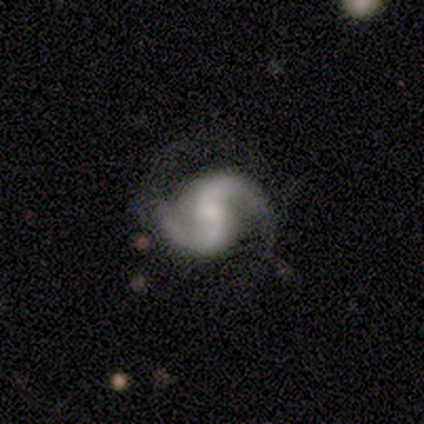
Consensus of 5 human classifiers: smooth_or_featured: featured or disk (p=1.00)
disk_edge_on: no (p=1.00)
bar: weak (p=0.60) [alt: no p=0.40]
has_spiral_arms: yes (p=1.00)
spiral_winding: medium (p=0.60) [alt: tight p=0.20]
spiral_arm_count: 2 (p=1.00)
bulge_size: moderate (p=0.40) [tied with: small p=0.40]
merging: none (p=0.80) [alt: major disturbance p=0.20]